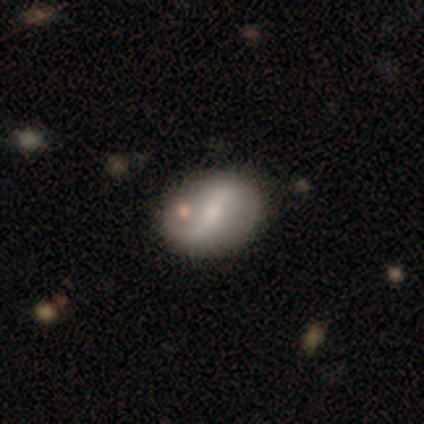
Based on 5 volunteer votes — Overall: featured or disk (60%; smooth 40%). Edge-on disk: no (100%). Bar: no (67%; weak 33%). Spiral arms: yes (100%). Spiral arm count: 2 (100%). Spiral winding: loose (67%; medium 33%). Bulge size: small (67%; none 33%). Merging: none (60%; minor disturbance 20%).